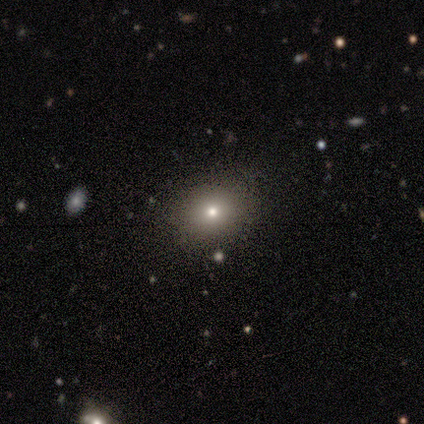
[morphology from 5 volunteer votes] A star or artifact, not a galaxy (60%).